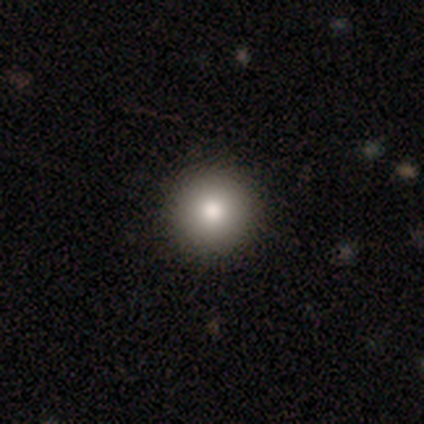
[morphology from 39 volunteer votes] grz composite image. It shows a smooth galaxy with no disk features (74%) that is round (100%). Merging: none (94%).